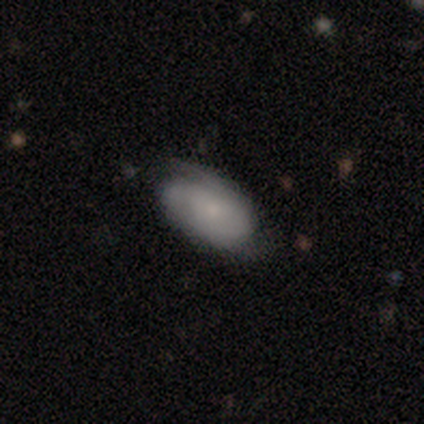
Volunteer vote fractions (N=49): Q: Smooth or featured?
A: featured or disk (57%); runner-up: smooth (35%)
Q: Edge-on disk?
A: no (93%); runner-up: yes (7%)
Q: Bar?
A: no (92%); runner-up: weak (8%)
Q: Spiral arms?
A: yes (81%); runner-up: no (19%)
Q: Spiral winding?
A: medium (57%); runner-up: tight (33%)
Q: Spiral arm count?
A: 2 (57%); runner-up: can't tell (19%)
Q: Bulge size?
A: small (54%); runner-up: moderate (35%)
Q: Merging?
A: none (62%); runner-up: minor disturbance (31%)